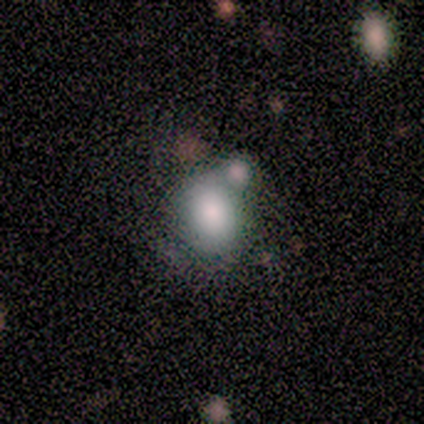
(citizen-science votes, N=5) A smooth galaxy with no disk features (100%) that is round (80%). Merging: minor disturbance (40%, tied with merger).